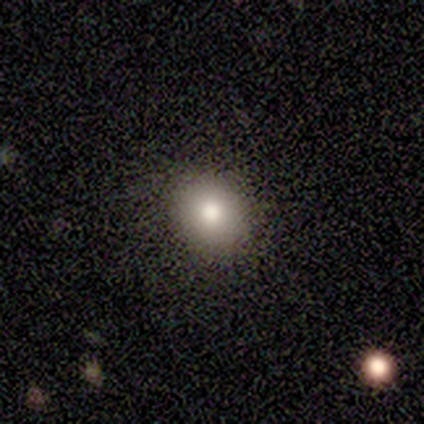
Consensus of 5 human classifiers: Q: Smooth or featured?
A: smooth (100%)
Q: How rounded?
A: round (80%); runner-up: in between (20%)
Q: Merging?
A: none (100%)